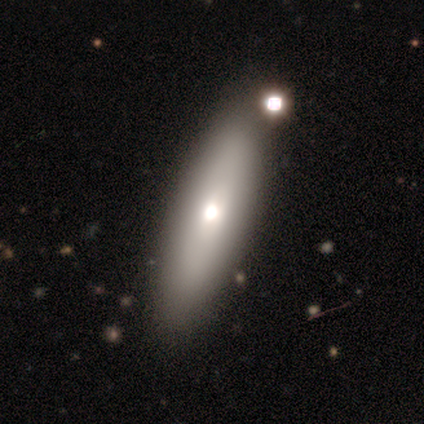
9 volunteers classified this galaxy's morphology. Smooth or featured: smooth — 67% (featured or disk — 33%)
How rounded: cigar-shaped — 67% (in between — 33%)
Merging: none — 89% (major disturbance — 11%)